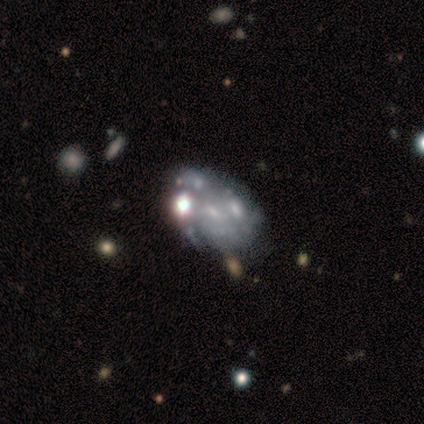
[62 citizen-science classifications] smooth_or_featured: featured or disk (p=0.68) [alt: smooth p=0.19]
disk_edge_on: no (p=1.00)
bar: no (p=0.79) [alt: weak p=0.21]
has_spiral_arms: no (p=0.52) [alt: yes p=0.48]
bulge_size: small (p=0.55) [alt: none p=0.26]
merging: none (p=0.39) [alt: merger p=0.28]